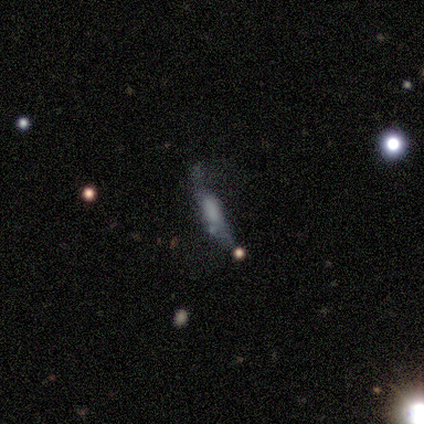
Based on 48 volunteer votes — smooth-or-featured: smooth: 44% (tied) | featured or disk: 44% (tied) | star or artifact: 12%
  how-rounded: cigar-shaped: 76% | in between: 19% | round: 5%
  merging: none: 40% | minor disturbance: 24% | major disturbance: 24% | merger: 12%